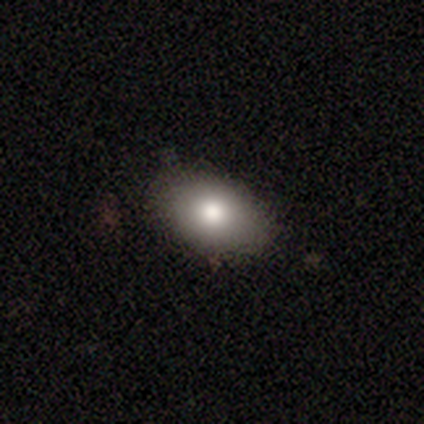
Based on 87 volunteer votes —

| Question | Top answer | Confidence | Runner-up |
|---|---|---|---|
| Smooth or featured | smooth | 80% | featured or disk (14%) |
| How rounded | in between | 81% | round (17%) |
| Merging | none | 85% | minor disturbance (13%) |